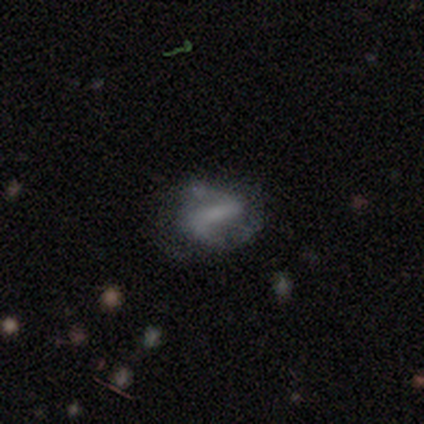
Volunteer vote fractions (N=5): Smooth or featured?
  - featured or disk: 100% *
  - smooth: 0%
  - star or artifact: 0%
Edge-on disk?
  - no: 100% *
  - yes: 0%
Bar?
  - strong: 80% *
  - weak: 20%
  - no: 0%
Spiral arms?
  - yes: 100% *
  - no: 0%
Spiral winding?
  - tight: 40% * (tied)
  - loose: 40% * (tied)
  - medium: 20%
Spiral arm count?
  - 2: 100% *
  - 1: 0%
  - 3: 0%
  - 4: 0%
  - more than 4: 0%
  - can't tell: 0%
Bulge size?
  - moderate: 40% * (tied)
  - none: 40% * (tied)
  - small: 20%
  - dominant: 0%
  - large: 0%
Merging?
  - none: 80% *
  - merger: 20%
  - minor disturbance: 0%
  - major disturbance: 0%